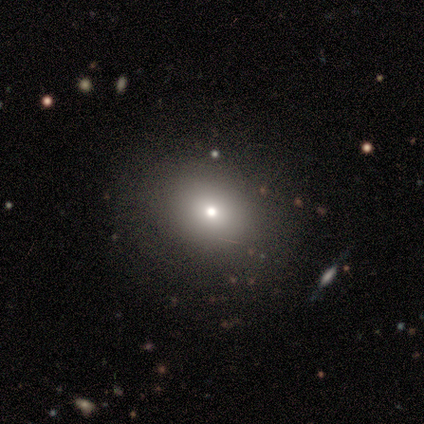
Smooth or featured? smooth (76%)
How rounded? round (66%)
Merging? none (85%)